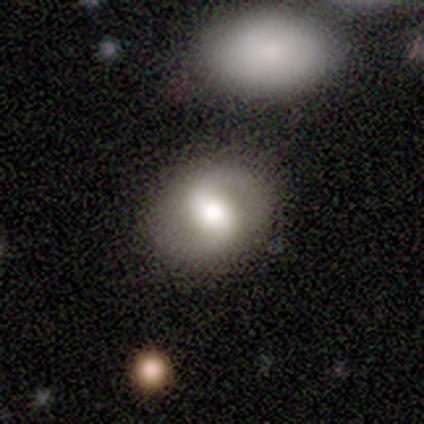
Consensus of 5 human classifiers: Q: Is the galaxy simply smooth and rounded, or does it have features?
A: featured or disk — 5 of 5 (100%).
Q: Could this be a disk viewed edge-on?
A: no — 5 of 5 (100%).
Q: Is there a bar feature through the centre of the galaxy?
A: no — 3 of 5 (60%).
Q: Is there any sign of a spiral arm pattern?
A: no — 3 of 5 (60%).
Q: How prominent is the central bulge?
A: moderate — 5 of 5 (100%).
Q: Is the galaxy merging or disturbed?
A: none — 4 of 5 (80%).